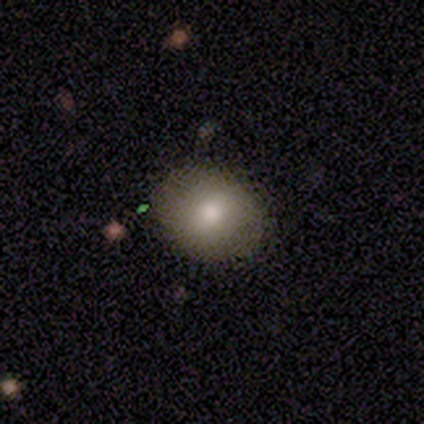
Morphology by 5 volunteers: Smooth or featured?
  - smooth: 80% *
  - featured or disk: 20%
  - star or artifact: 0%
How rounded?
  - round: 50% * (tied)
  - in between: 50% * (tied)
  - cigar-shaped: 0%
Merging?
  - none: 100% *
  - minor disturbance: 0%
  - major disturbance: 0%
  - merger: 0%